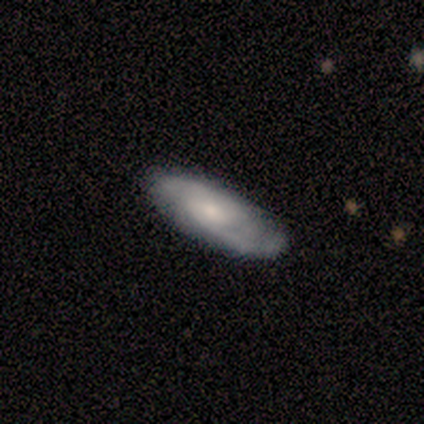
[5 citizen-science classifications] smooth_or_featured: featured or disk (p=0.80) [alt: smooth p=0.20]
disk_edge_on: no (p=0.75) [alt: yes p=0.25]
bar: no (p=0.67) [alt: weak p=0.33]
has_spiral_arms: yes (p=1.00)
spiral_winding: medium (p=0.67) [alt: tight p=0.33]
spiral_arm_count: 2 (p=0.67) [alt: can't tell p=0.33]
bulge_size: moderate (p=1.00)
merging: none (p=0.60) [alt: minor disturbance p=0.20]